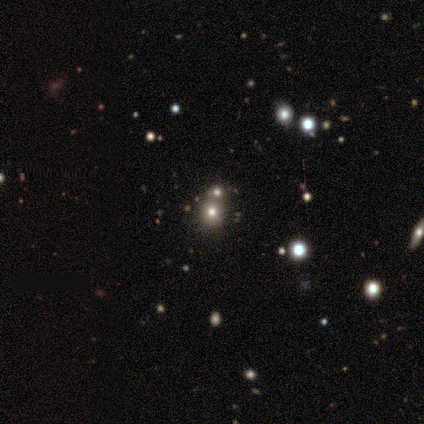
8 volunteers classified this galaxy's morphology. A smooth galaxy with no disk features (50%, tied with star or artifact) that is round (100%). Merging: none (100%).